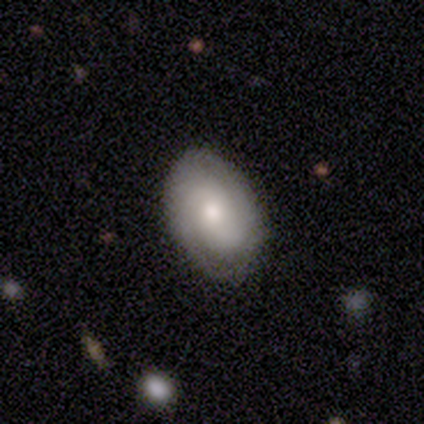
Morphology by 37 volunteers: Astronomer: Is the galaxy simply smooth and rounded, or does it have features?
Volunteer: featured or disk — 62%.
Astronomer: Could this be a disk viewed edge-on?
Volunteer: no — 96%.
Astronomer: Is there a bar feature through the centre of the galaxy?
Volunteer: no — 73%.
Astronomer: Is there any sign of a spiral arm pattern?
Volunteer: yes — 77%.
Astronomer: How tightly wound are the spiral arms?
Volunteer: tight — 65%.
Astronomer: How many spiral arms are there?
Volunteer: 2 — 71%.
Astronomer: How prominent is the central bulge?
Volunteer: small — 45% (runner-up: moderate, 41%).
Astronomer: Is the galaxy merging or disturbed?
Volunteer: none — 75%.